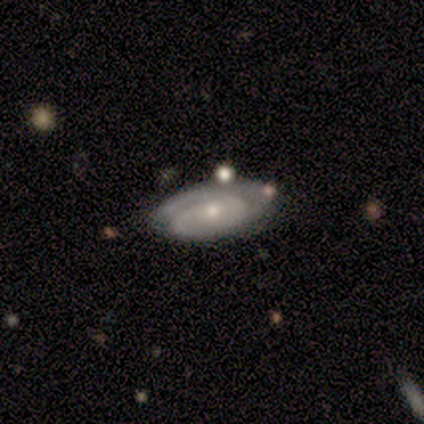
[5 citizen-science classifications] Overall: featured or disk (100%). Edge-on disk: no (80%). Bar: no (100%). Spiral arms: yes (75%). Spiral arm count: 2 (67%; 3 33%). Spiral winding: medium (67%; tight 33%). Bulge size: small (100%). Merging: none (100%).